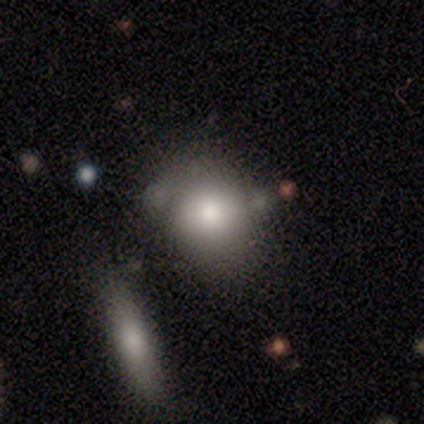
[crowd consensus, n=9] smooth-or-featured: smooth: 67% | featured or disk: 22% | star or artifact: 11%
  how-rounded: round: 67% | in between: 33% | cigar-shaped: 0%
  merging: none: 88% | merger: 12% | minor disturbance: 0% | major disturbance: 0%